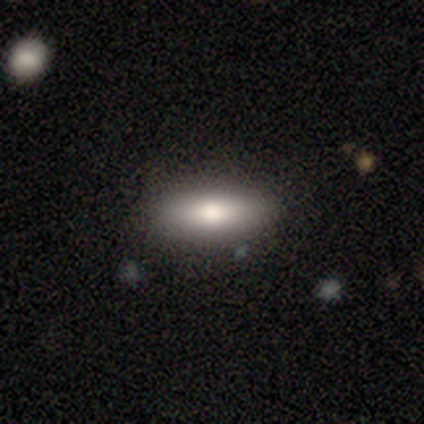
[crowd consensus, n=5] Overall: smooth (60%; featured or disk 40%). How rounded: cigar-shaped (67%; in between 33%). Merging: none (80%).